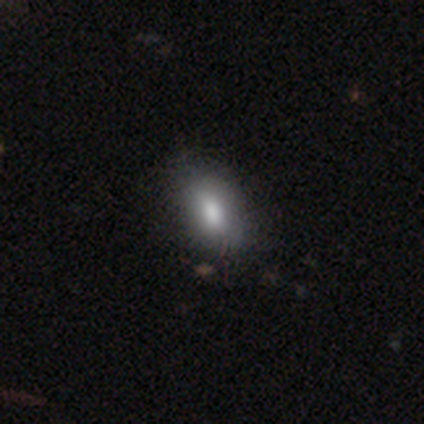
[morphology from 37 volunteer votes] Smooth or featured?
  - smooth: 76% *
  - featured or disk: 14%
  - star or artifact: 11%
How rounded?
  - in between: 89% *
  - cigar-shaped: 11%
  - round: 0%
Merging?
  - none: 76% *
  - minor disturbance: 21%
  - major disturbance: 3%
  - merger: 0%